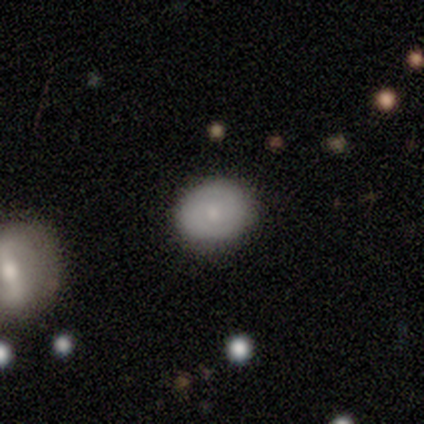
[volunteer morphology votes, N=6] Smooth or featured? featured or disk (50%)
Edge-on disk? no (100%)
Bar? no (100%)
Spiral arms? yes (67%)
Spiral winding? medium (100%)
Spiral arm count? 2 (100%)
Bulge size? moderate (67%)
Merging? none (80%)